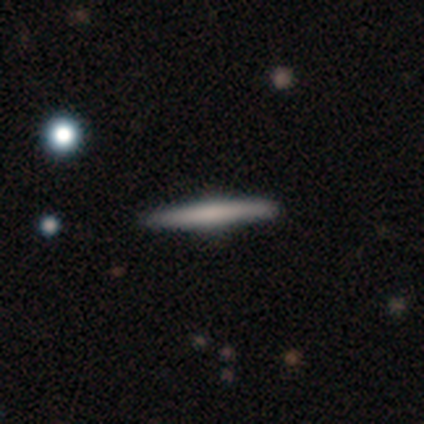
Volunteers were most divided on "smooth or featured": smooth: 60%, featured or disk: 40%, star or artifact: 0%. More confident: how rounded — cigar-shaped (100%); merging — none (100%).